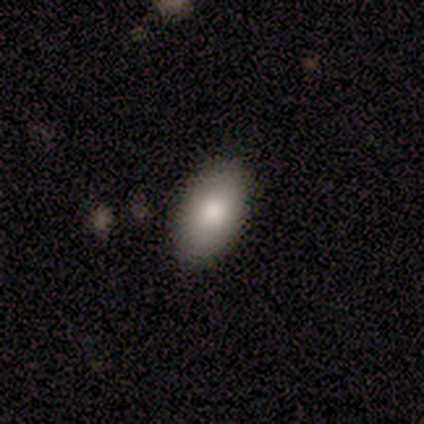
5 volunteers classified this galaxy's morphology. smooth_or_featured: smooth (p=1.00)
how_rounded: in between (p=1.00)
merging: none (p=0.80) [alt: major disturbance p=0.20]